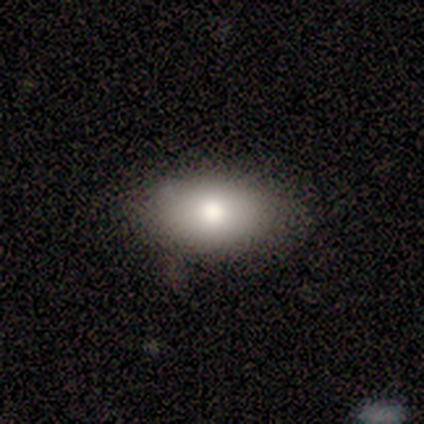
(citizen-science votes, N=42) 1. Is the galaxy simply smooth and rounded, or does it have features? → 69% smooth, 24% featured or disk, 7% star or artifact.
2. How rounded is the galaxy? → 100% in between, 0% round, 0% cigar-shaped.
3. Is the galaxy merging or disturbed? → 74% none, 15% minor disturbance, 5% major disturbance, 5% merger.